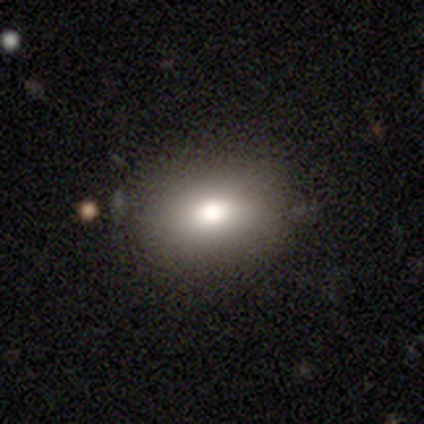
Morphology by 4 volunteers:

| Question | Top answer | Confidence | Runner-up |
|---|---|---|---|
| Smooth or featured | smooth | 75% | featured or disk (25%) |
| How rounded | in between | 100% | — |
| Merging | none | 100% | — |